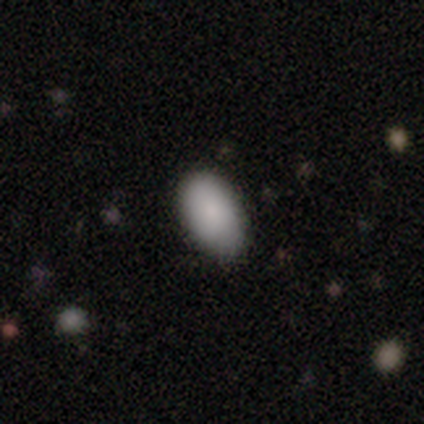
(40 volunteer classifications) Volunteers were most divided on "smooth or featured": smooth: 80%, star or artifact: 12%, featured or disk: 8%. More confident: merging — none (91%); how rounded — in between (84%).